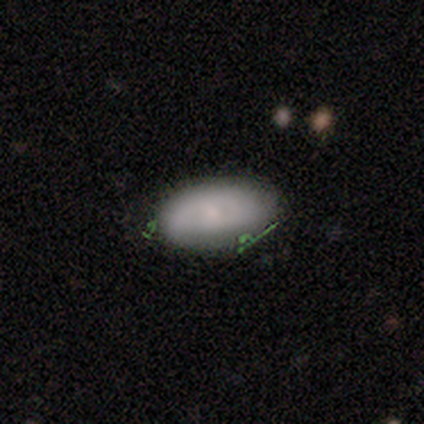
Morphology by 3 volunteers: Smooth or featured? 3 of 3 (100%) said smooth. How rounded? 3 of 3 (100%) said in between. Merging? 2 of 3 (67%) said none.